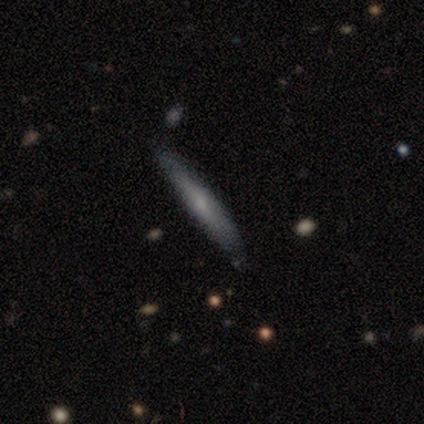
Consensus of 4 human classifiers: Smooth or featured? smooth (100%)
How rounded? cigar-shaped (100%)
Merging? none (100%)